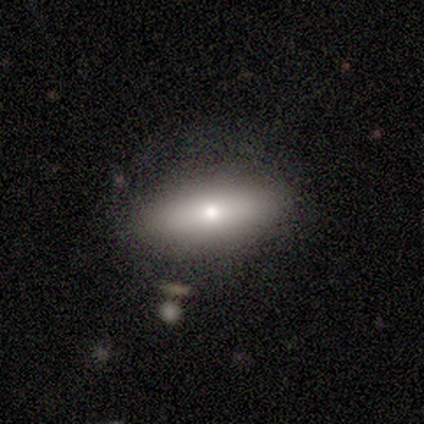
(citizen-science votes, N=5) This is likely a featured or disk galaxy (60%). It is likely viewed edge-on (67%). Edge-on bulge: clearly rounded (100%). Merging: likely none (60%).